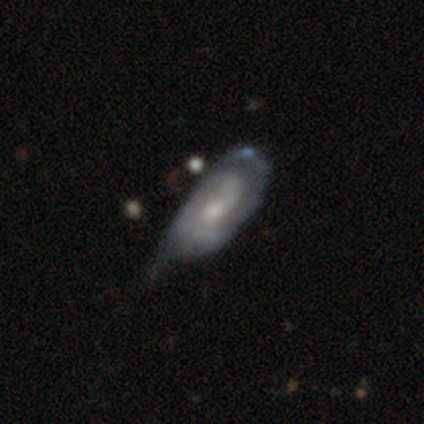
A featured or disk galaxy (68%) with no bar (63%), 2 (58%) tight (52%) spiral arms (84%) and a moderate central bulge (60%).

Vote fractions:
- Smooth or featured? featured or disk: 68% / smooth: 25% / star or artifact: 7%
- Edge-on disk? no: 95% / yes: 5%
- Bar? no: 63% / weak: 32% / strong: 5%
- Spiral arms? yes: 84% / no: 16%
- Spiral winding? tight: 52% / medium: 25% / loose: 23%
- Spiral arm count? 2: 58% / can't tell: 25% / 1: 17% / 3: 0% / 4: 0% / more than 4: 0%
- Bulge size? moderate: 60% / small: 37% / none: 4% / dominant: 0% / large: 0%
- Merging? minor disturbance: 45% / none: 34% / major disturbance: 15% / merger: 6%